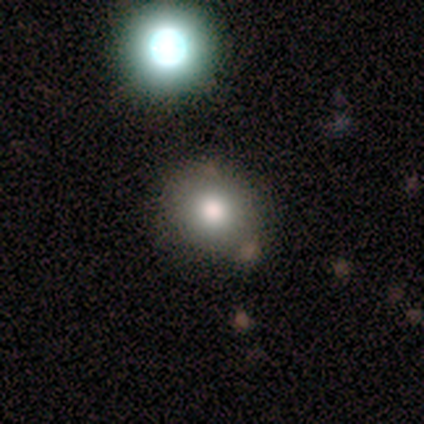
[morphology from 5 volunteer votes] Smooth or featured: smooth — 80% (featured or disk — 20%)
How rounded: round — 75% (in between — 25%)
Merging: none — 80% (major disturbance — 20%)